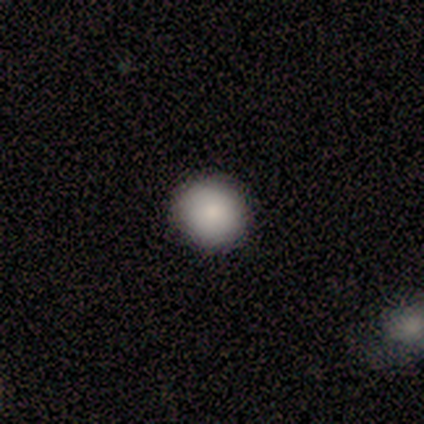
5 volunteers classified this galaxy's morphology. smooth_or_featured: smooth (p=0.80) [alt: featured or disk p=0.20]
how_rounded: round (p=0.75) [alt: in between p=0.25]
merging: none (p=1.00)